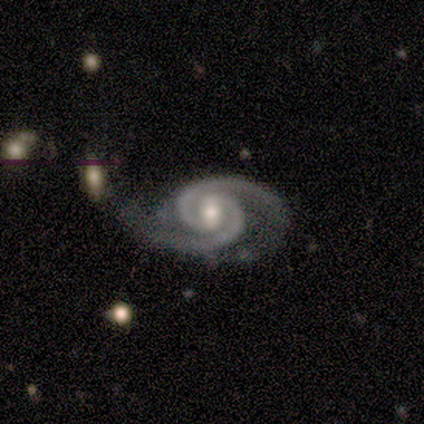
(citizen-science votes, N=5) A featured or disk galaxy (100%) with a weak bar (80%), 2 (100%) tight (80%) spiral arms (100%) and a moderate central bulge (80%). Merging: none (80%).